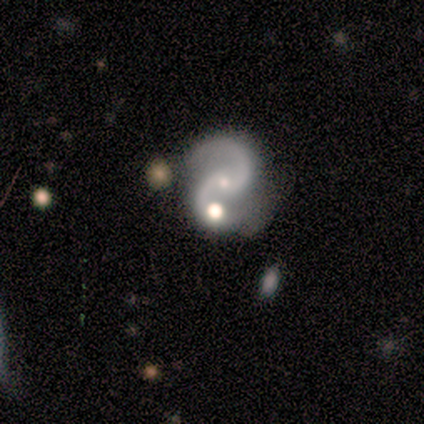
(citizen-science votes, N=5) Smooth or featured? featured or disk (100%)
Edge-on disk? no (100%)
Bar? no (60%)
Spiral arms? yes (100%)
Spiral winding? medium (60%)
Spiral arm count? 2 (100%)
Bulge size? small (100%)
Merging? minor disturbance (60%)